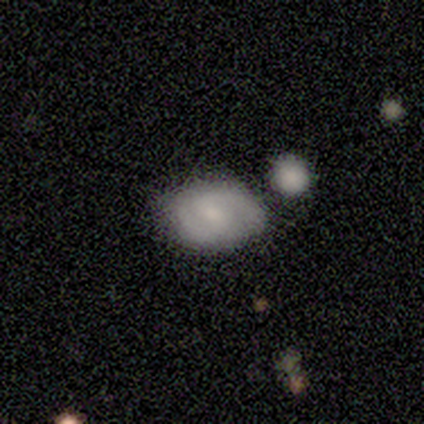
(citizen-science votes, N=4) Morphology: type=smooth (50%, tied with featured or disk); roundness=in between (100%); merging=none (50%, tied with merger).